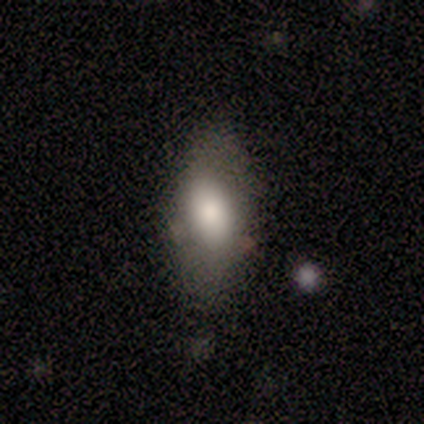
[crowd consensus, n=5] smooth-or-featured: smooth: 100% | featured or disk: 0% | star or artifact: 0%
  how-rounded: in between: 100% | round: 0% | cigar-shaped: 0%
  merging: none: 80% | minor disturbance: 20% | major disturbance: 0% | merger: 0%